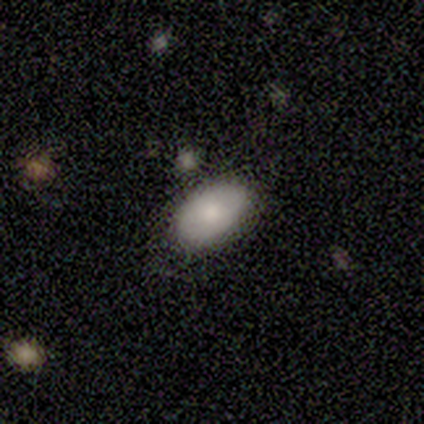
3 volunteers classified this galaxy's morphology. Consensus on every question: smooth or featured — smooth (100%); how rounded — in between (100%); merging — none (100%).